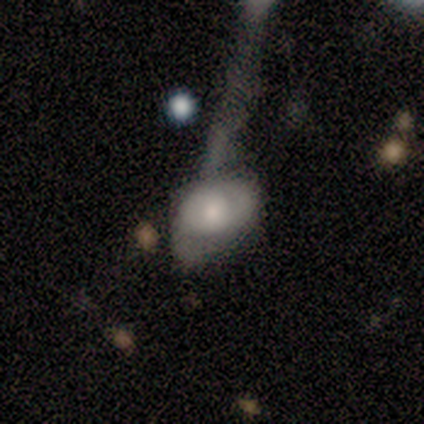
A smooth galaxy with no disk features (80%) that is in between round and cigar-shaped (100%). Merging: major disturbance (60%).